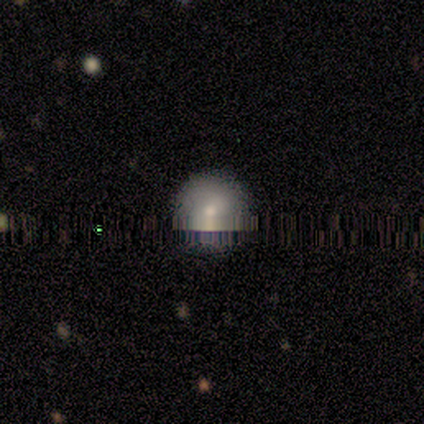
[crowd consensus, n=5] smooth 100%, featured or disk 0%, star or artifact 0%. Down the decision tree: how rounded — round (100%); merging — none (100%).